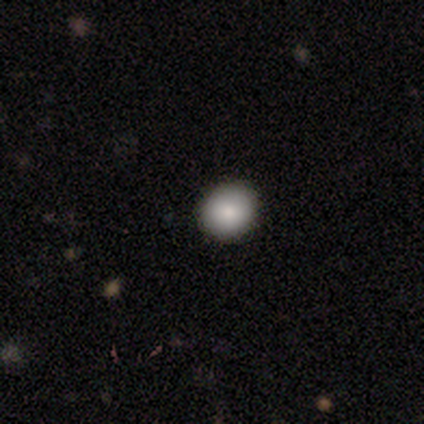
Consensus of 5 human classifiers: This appears to be a smooth galaxy with no disk features (80%) that is round (75%). Merging: none (80%).